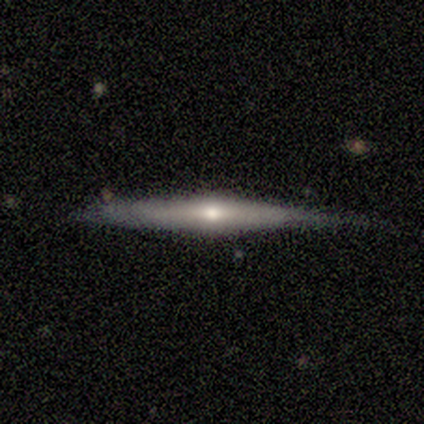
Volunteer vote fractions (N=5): Q: Smooth or featured?
A: featured or disk (80%); runner-up: smooth (20%)
Q: Edge-on disk?
A: yes (100%)
Q: Edge-on bulge?
A: rounded (100%)
Q: Merging?
A: none (60%); runner-up: minor disturbance (40%)